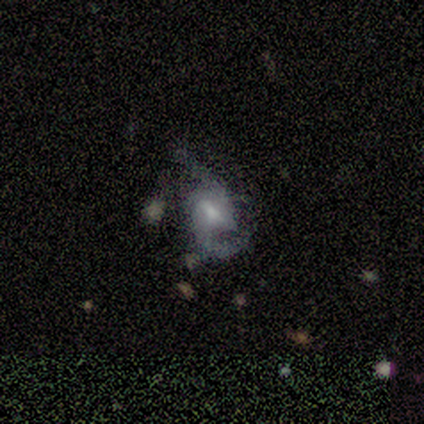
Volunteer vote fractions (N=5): smooth_or_featured: featured or disk (p=1.00)
disk_edge_on: no (p=1.00)
bar: weak (p=0.80) [alt: no p=0.20]
has_spiral_arms: yes (p=1.00)
spiral_winding: medium (p=0.60) [alt: loose p=0.40]
spiral_arm_count: 2 (p=1.00)
bulge_size: small (p=0.80) [alt: none p=0.20]
merging: none (p=0.60) [alt: minor disturbance p=0.40]